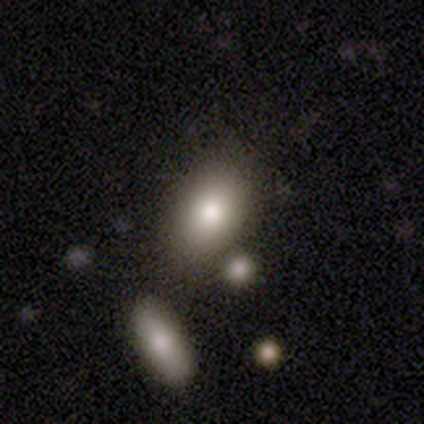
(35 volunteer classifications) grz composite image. It shows a smooth galaxy with no disk features (80%) that is in between round and cigar-shaped (89%). Merging: merger (52%).